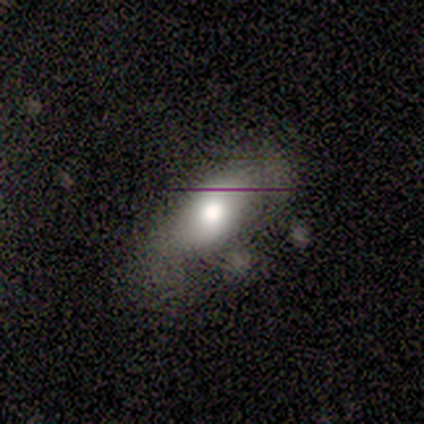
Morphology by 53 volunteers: smooth 64%, featured or disk 34%, star or artifact 2%. Down the decision tree: how rounded — in between (79%); merging — none (37%, tied with minor disturbance).